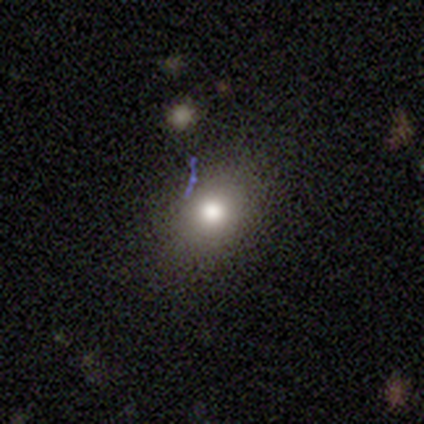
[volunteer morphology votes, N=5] Smooth or featured: star or artifact — 60% (smooth — 40%)